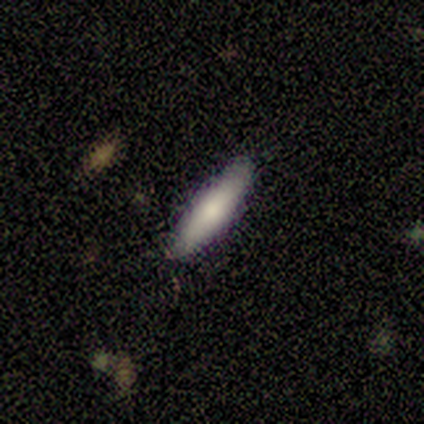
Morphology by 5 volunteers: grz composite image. It shows a smooth galaxy with no disk features (100%) that is cigar-shaped (80%). Merging: none (100%).